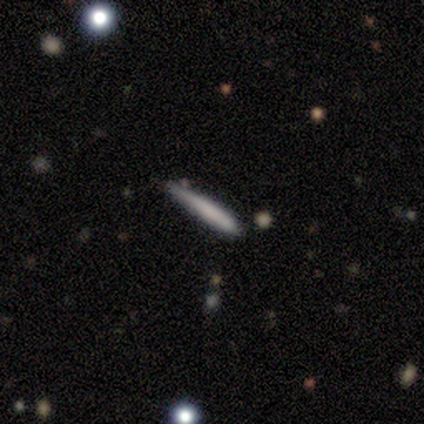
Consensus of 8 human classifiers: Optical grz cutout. It shows a smooth galaxy with no disk features (75%) that is cigar-shaped (100%). Merging: none (50%, tied with minor disturbance).